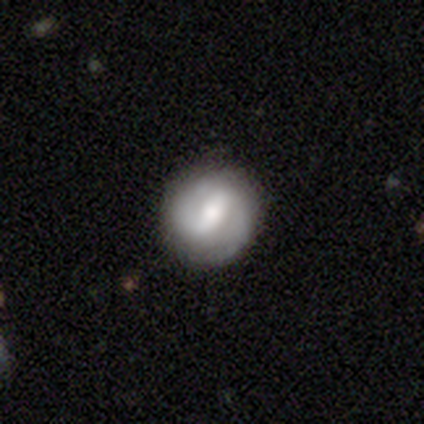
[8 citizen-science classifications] Morphology: type=smooth (50%, tied with featured or disk); roundness=round (75%); merging=none (100%).